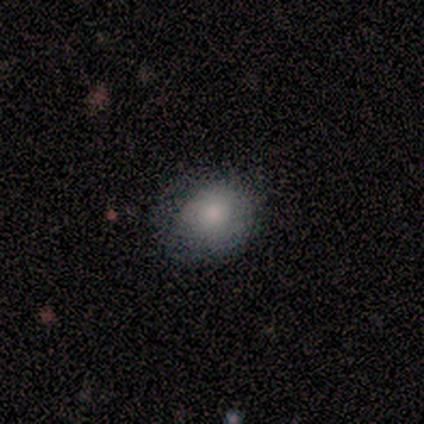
Smooth or featured? 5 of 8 (62%) said smooth. How rounded? 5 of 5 (100%) said round. Merging? 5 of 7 (71%) said none.